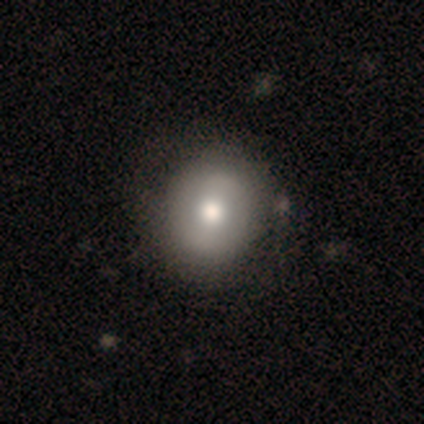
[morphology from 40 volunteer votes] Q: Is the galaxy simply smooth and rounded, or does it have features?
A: smooth — 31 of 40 (78%).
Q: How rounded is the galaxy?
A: round — 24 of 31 (77%).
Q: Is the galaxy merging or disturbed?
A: none — 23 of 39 (59%).